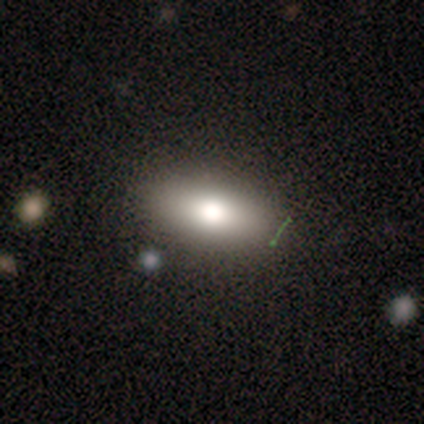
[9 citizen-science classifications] Volunteers were most divided on "merging": none: 67%, major disturbance: 22%, minor disturbance: 11%, merger: 0%. More confident: smooth or featured — smooth (89%); how rounded — in between (88%).